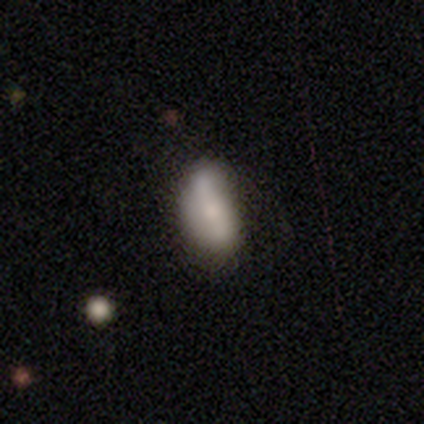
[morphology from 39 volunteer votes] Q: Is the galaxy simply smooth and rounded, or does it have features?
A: smooth — 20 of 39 (51%).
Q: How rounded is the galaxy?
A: in between — 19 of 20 (95%).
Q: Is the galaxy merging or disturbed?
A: none — 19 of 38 (50%).